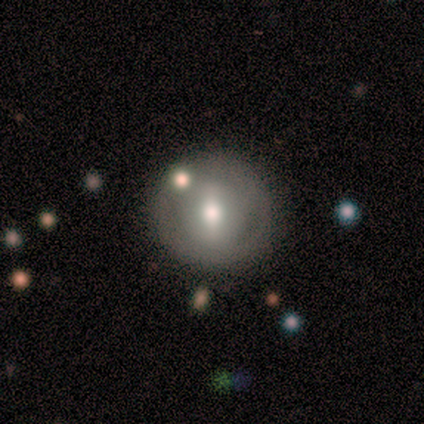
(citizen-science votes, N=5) Smooth or featured?
  - smooth: 80% *
  - featured or disk: 20%
  - star or artifact: 0%
How rounded?
  - round: 100% *
  - in between: 0%
  - cigar-shaped: 0%
Merging?
  - none: 100% *
  - minor disturbance: 0%
  - major disturbance: 0%
  - merger: 0%